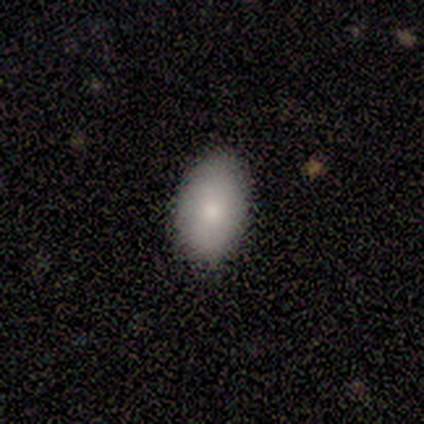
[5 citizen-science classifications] Smooth or featured: smooth — 100%
How rounded: in between — 100%
Merging: none — 100%